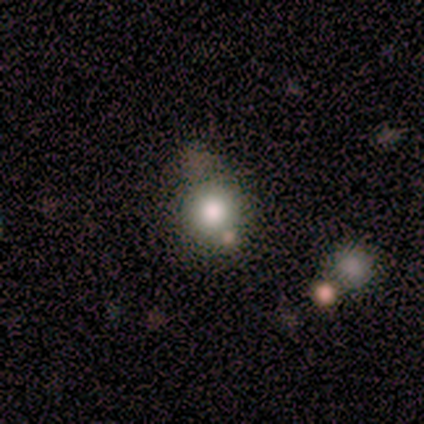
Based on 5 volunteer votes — Smooth or featured?
  - featured or disk: 40% * (tied)
  - star or artifact: 40% * (tied)
  - smooth: 20%
Edge-on disk?
  - no: 100% *
  - yes: 0%
Bar?
  - no: 100% *
  - strong: 0%
  - weak: 0%
Spiral arms?
  - no: 100% *
  - yes: 0%
Bulge size?
  - moderate: 50% * (tied)
  - small: 50% * (tied)
  - dominant: 0%
  - large: 0%
  - none: 0%
Merging?
  - none: 67% *
  - minor disturbance: 33%
  - major disturbance: 0%
  - merger: 0%